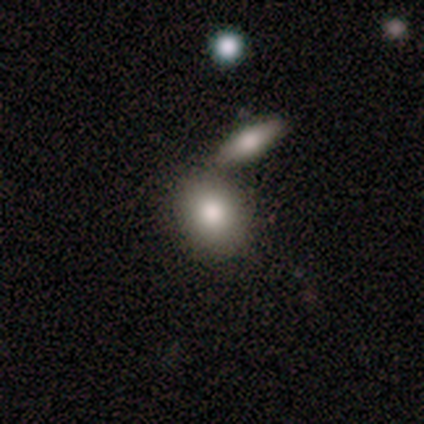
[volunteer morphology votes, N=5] Smooth or featured: smooth — 60% (featured or disk — 20%)
How rounded: in between — 100%
Merging: none — 75% (merger — 25%)